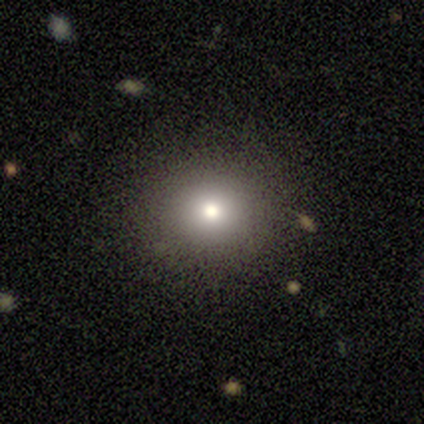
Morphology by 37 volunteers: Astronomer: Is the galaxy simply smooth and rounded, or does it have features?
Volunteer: smooth — 62%.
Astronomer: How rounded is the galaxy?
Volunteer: round — 87%.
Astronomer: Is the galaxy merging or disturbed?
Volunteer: none — 96%.